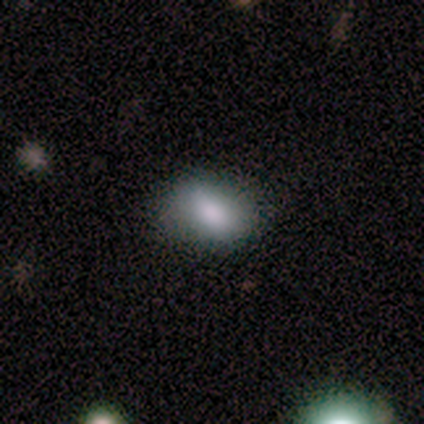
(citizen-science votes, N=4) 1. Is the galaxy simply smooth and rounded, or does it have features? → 75% smooth, 25% featured or disk, 0% star or artifact.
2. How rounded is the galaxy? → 67% round, 33% in between, 0% cigar-shaped.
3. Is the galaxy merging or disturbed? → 75% none, 25% minor disturbance, 0% major disturbance, 0% merger.